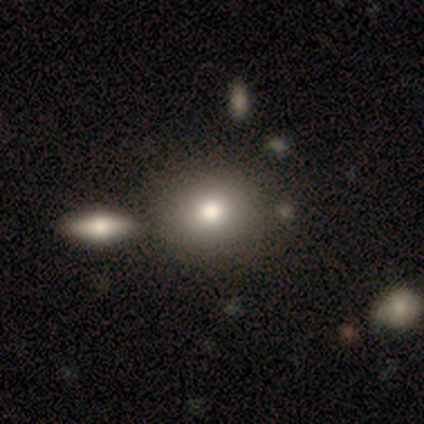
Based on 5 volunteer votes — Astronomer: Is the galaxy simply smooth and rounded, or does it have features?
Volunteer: smooth — 100%.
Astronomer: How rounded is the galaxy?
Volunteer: round — 60% (runner-up: in between, 40%).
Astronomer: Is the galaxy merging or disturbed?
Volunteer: none — 80%.